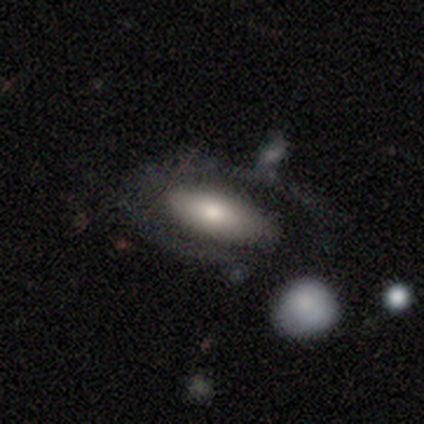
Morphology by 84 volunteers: type=smooth (46%); roundness=in between (79%); merging=none (48%).